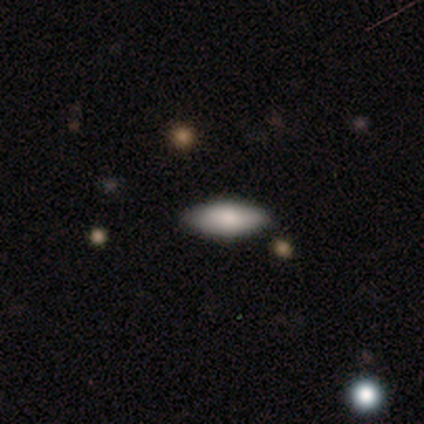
smooth_or_featured: smooth (p=0.78) [alt: featured or disk p=0.20]
how_rounded: in between (p=0.91) [alt: cigar-shaped p=0.09]
merging: none (p=0.93) [alt: minor disturbance p=0.05]